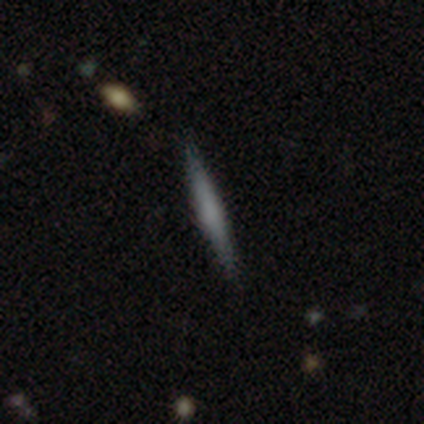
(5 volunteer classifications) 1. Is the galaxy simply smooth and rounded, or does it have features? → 60% featured or disk, 40% smooth, 0% star or artifact.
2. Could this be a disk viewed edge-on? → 100% yes, 0% no.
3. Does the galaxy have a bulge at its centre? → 67% rounded, 33% none, 0% boxy.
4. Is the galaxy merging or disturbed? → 100% none, 0% minor disturbance, 0% major disturbance, 0% merger.